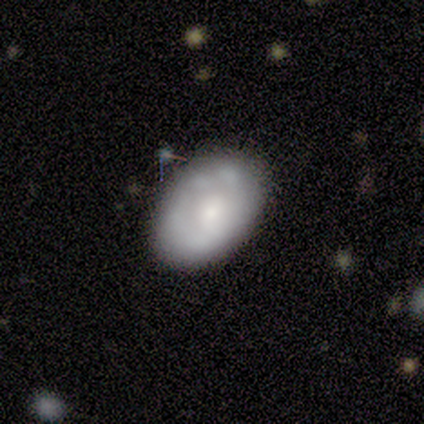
smooth-or-featured: smooth: 60% | featured or disk: 40% | star or artifact: 0%
  how-rounded: in between: 100% | round: 0% | cigar-shaped: 0%
  merging: none: 100% | minor disturbance: 0% | major disturbance: 0% | merger: 0%